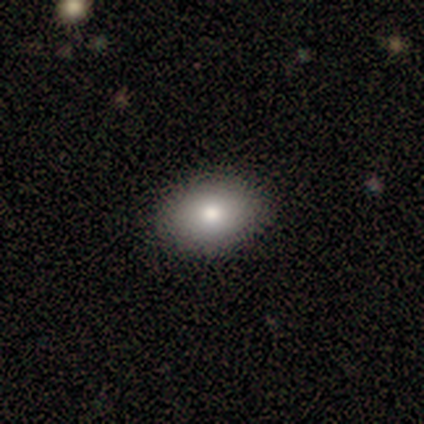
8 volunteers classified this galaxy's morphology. Overall: smooth (62%; star or artifact 25%). How rounded: in between (60%; round 40%). Merging: none (100%).